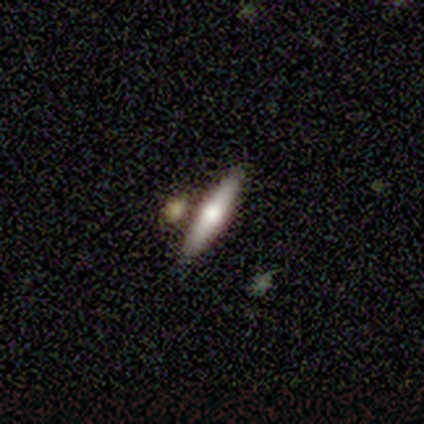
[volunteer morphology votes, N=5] Q: Smooth or featured?
A: featured or disk (60%); runner-up: smooth (40%)
Q: Edge-on disk?
A: yes (100%)
Q: Edge-on bulge?
A: rounded (100%)
Q: Merging?
A: none (100%)